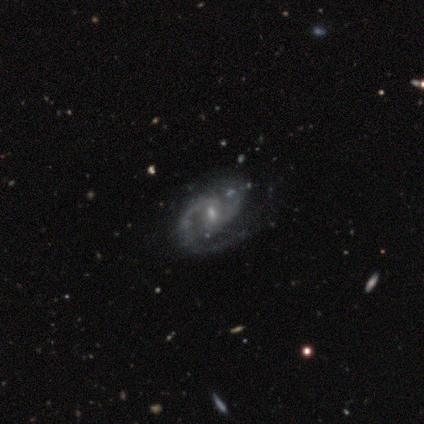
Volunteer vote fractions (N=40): Smooth or featured? featured or disk (92%)
Edge-on disk? no (100%)
Bar? weak (62%)
Spiral arms? yes (95%)
Spiral winding? medium (60%)
Spiral arm count? 2 (94%)
Bulge size? small (73%)
Merging? none (55%)